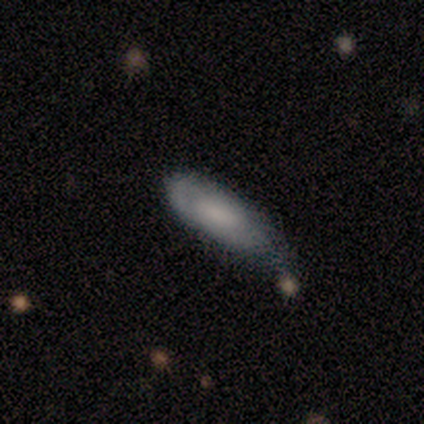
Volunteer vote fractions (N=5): smooth_or_featured: featured or disk (p=0.60) [alt: smooth p=0.40]
disk_edge_on: no (p=0.67) [alt: yes p=0.33]
bar: weak (p=0.50) [tied with: no p=0.50]
has_spiral_arms: no (p=1.00)
bulge_size: small (p=0.50) [tied with: none p=0.50]
merging: minor disturbance (p=0.60) [alt: none p=0.20]